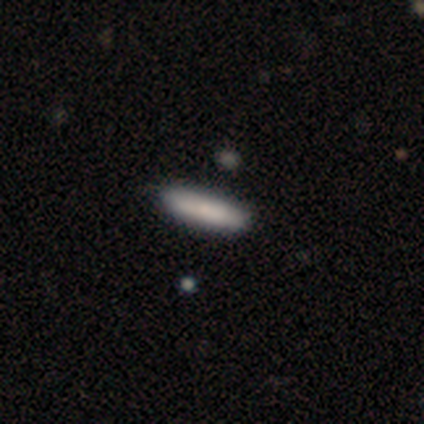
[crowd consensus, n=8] This is clearly a smooth galaxy (100%). How rounded: clearly cigar-shaped (88%). Merging: clearly none (88%).